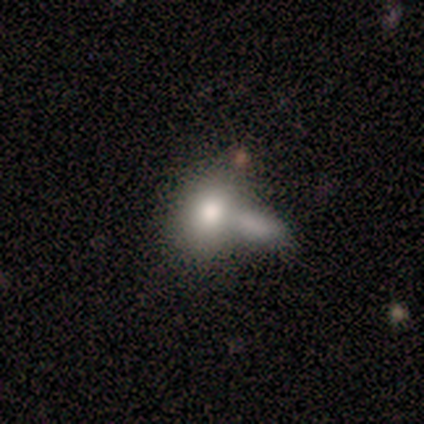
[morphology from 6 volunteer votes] Smooth or featured? 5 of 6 (83%) said smooth. How rounded? 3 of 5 (60%) said round. Merging? 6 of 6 (100%) said merger.